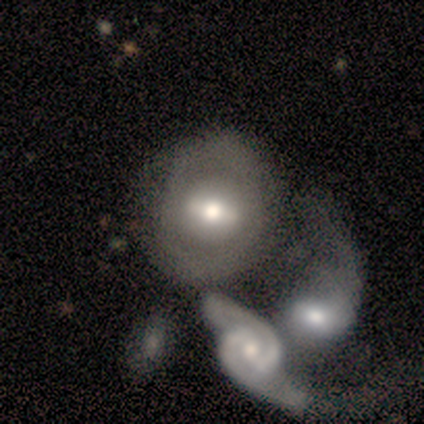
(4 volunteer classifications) Smooth or featured?
  - featured or disk: 100% *
  - smooth: 0%
  - star or artifact: 0%
Edge-on disk?
  - no: 75% *
  - yes: 25%
Bar?
  - weak: 67% *
  - strong: 33%
  - no: 0%
Spiral arms?
  - no: 100% *
  - yes: 0%
Bulge size?
  - moderate: 67% *
  - small: 33%
  - dominant: 0%
  - large: 0%
  - none: 0%
Merging?
  - minor disturbance: 50% *
  - major disturbance: 25%
  - merger: 25%
  - none: 0%